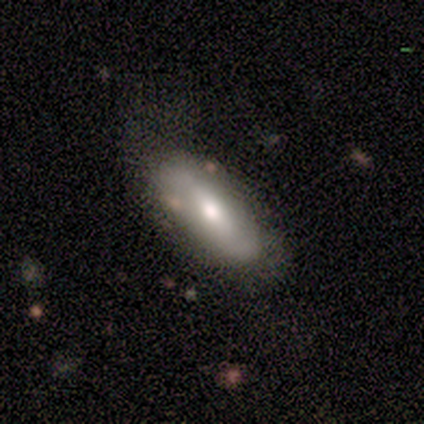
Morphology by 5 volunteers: This is likely a smooth galaxy (60%). How rounded: clearly in between (100%). Merging: likely minor disturbance (60%).